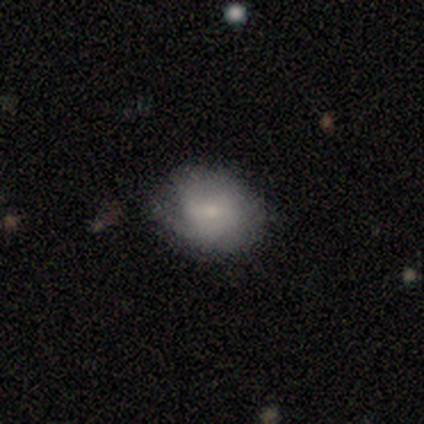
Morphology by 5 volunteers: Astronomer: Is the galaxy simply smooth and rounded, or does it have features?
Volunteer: smooth — 60% (runner-up: featured or disk, 40%).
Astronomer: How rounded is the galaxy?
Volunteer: in between — 100%.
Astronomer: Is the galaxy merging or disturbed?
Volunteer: none — 40%, tied with major disturbance at 40%.